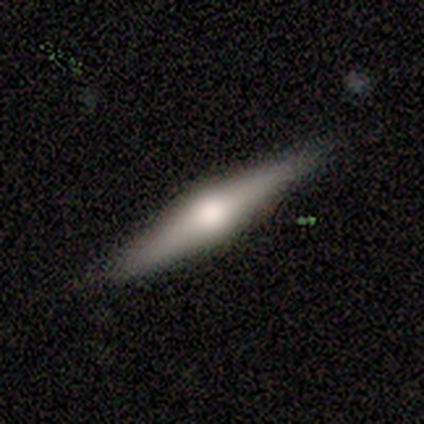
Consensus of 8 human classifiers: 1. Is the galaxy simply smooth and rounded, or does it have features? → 62% featured or disk, 25% smooth, 12% star or artifact.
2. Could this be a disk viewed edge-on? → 100% yes, 0% no.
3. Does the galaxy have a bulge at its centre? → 100% rounded, 0% boxy, 0% none.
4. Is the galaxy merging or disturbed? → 86% none, 14% minor disturbance, 0% major disturbance, 0% merger.